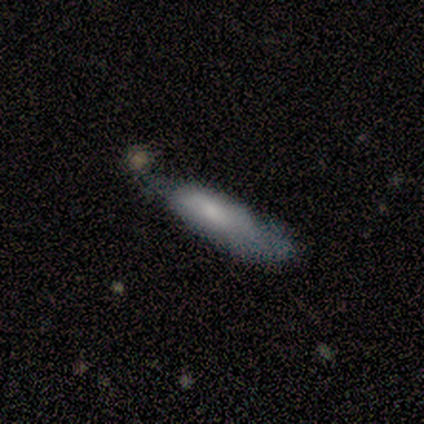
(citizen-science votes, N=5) This appears to be a smooth galaxy with no disk features (80%) that is in between round and cigar-shaped (50%, tied with cigar-shaped). Merging: minor disturbance (80%).